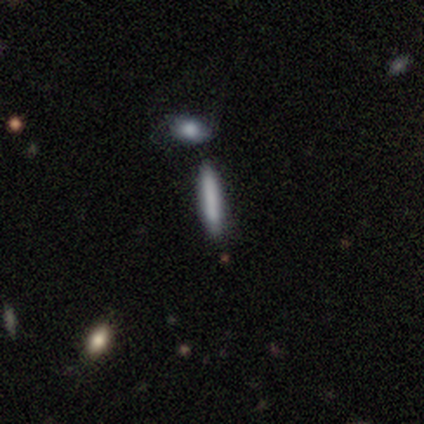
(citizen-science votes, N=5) A smooth galaxy with no disk features (60%) that is cigar-shaped (100%).

Vote fractions:
- Smooth or featured? smooth: 60% / star or artifact: 40% / featured or disk: 0%
- How rounded? cigar-shaped: 100% / round: 0% / in between: 0%
- Merging? none: 100% / minor disturbance: 0% / major disturbance: 0% / merger: 0%